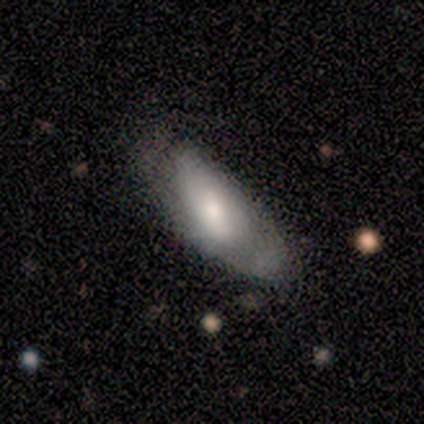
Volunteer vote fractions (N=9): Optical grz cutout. It shows a smooth galaxy with no disk features (56%) that is in between round and cigar-shaped (60%). Merging: minor disturbance (44%).